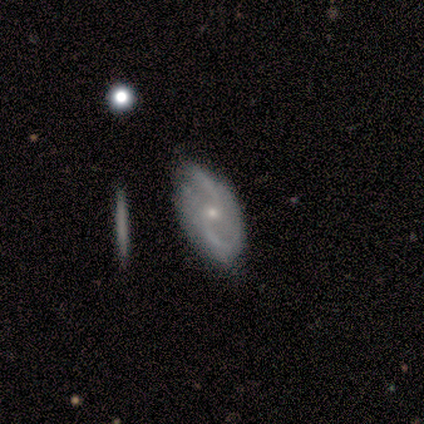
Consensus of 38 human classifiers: This appears to be a featured or disk galaxy (74%) with no bar (67%), 2 (96%) loose (52%) spiral arms (85%) and a small central bulge (70%). Merging: none (59%).